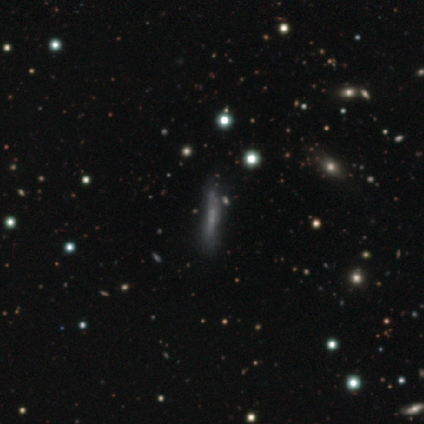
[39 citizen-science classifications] Smooth or featured: featured or disk — 49% (smooth — 33%)
Edge-on disk: yes — 63% (no — 37%)
Edge-on bulge: none — 58% (boxy — 25%)
Merging: none — 72% (minor disturbance — 12%)